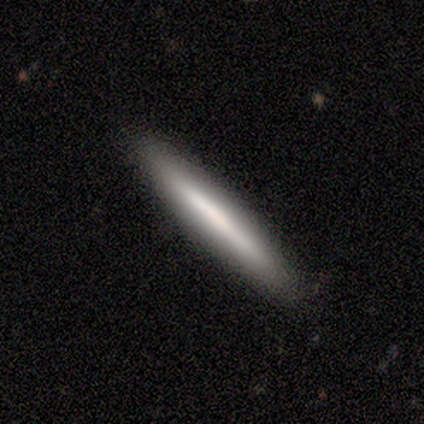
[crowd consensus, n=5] Q: Smooth or featured?
A: smooth (80%); runner-up: featured or disk (20%)
Q: How rounded?
A: cigar-shaped (100%)
Q: Merging?
A: none (100%)